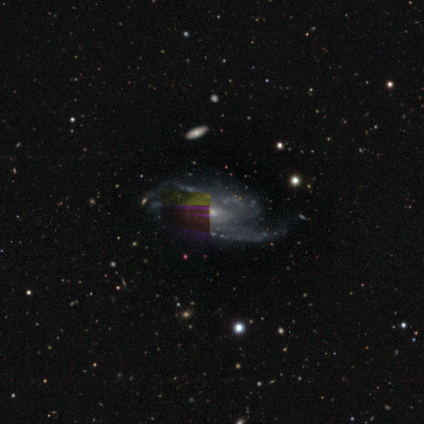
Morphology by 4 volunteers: A featured or disk galaxy (100%) with no bar (75%), 2 (33%, tied with 3 and 4) medium (100%) spiral arms (75%) and a moderate central bulge (50%, tied with small).

Vote fractions:
- Smooth or featured? featured or disk: 100% / smooth: 0% / star or artifact: 0%
- Edge-on disk? no: 100% / yes: 0%
- Bar? no: 75% / weak: 25% / strong: 0%
- Spiral arms? yes: 75% / no: 25%
- Spiral winding? medium: 100% / tight: 0% / loose: 0%
- Spiral arm count? 2: 33% (tied) / 3: 33% (tied) / 4: 33% (tied) / 1: 0% / more than 4: 0% / can't tell: 0%
- Bulge size? moderate: 50% (tied) / small: 50% (tied) / dominant: 0% / large: 0% / none: 0%
- Merging? none: 50% / minor disturbance: 25% / major disturbance: 25% / merger: 0%